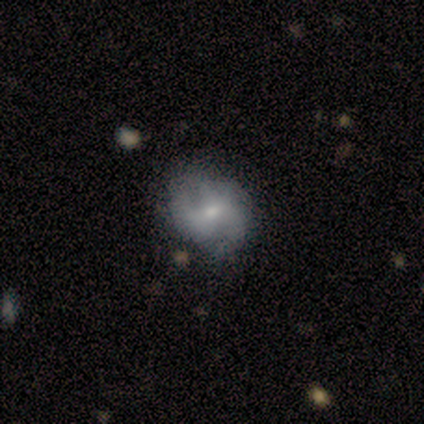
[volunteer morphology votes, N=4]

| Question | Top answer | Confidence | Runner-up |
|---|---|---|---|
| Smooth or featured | smooth | 50% | tied: featured or disk (50%) |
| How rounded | round | 50% | tied: in between (50%) |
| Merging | none | 75% | minor disturbance (25%) |